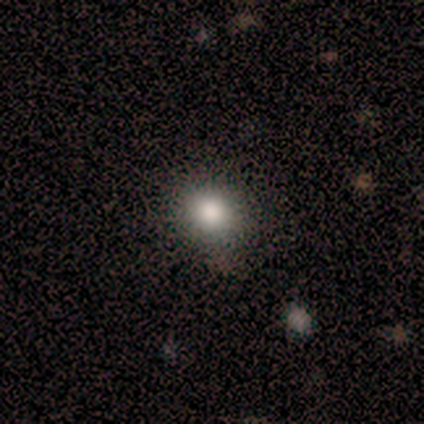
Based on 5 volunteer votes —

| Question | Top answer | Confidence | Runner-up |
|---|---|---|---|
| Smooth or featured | smooth | 80% | featured or disk (20%) |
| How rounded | round | 100% | — |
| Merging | none | 100% | — |